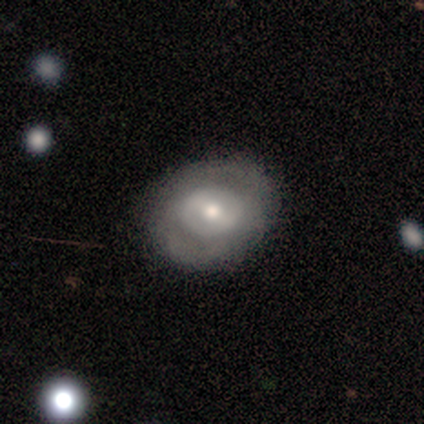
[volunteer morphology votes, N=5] Q: Smooth or featured?
A: smooth (60%); runner-up: featured or disk (40%)
Q: How rounded?
A: round (67%); runner-up: in between (33%)
Q: Merging?
A: none (100%)